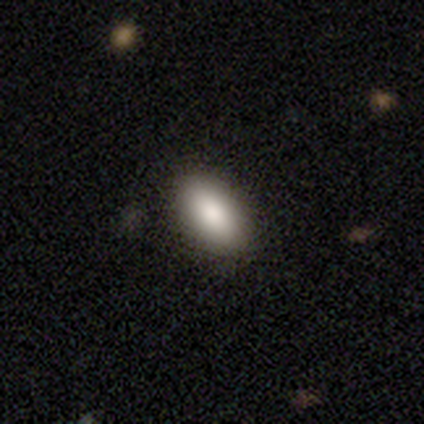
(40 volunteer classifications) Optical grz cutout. It shows a smooth galaxy with no disk features (90%) that is in between round and cigar-shaped (97%). Merging: none (77%).